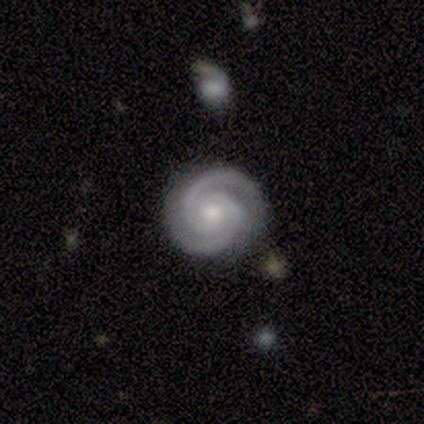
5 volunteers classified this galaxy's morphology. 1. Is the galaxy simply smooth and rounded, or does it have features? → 80% featured or disk, 20% star or artifact, 0% smooth.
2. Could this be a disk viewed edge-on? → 100% no, 0% yes.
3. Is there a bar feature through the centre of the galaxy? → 100% no, 0% strong, 0% weak.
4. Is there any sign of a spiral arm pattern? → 100% yes, 0% no.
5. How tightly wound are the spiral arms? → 100% tight, 0% medium, 0% loose.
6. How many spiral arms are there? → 100% 2, 0% 1, 0% 3, 0% 4, 0% more than 4, 0% can't tell.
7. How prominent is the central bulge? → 100% moderate, 0% dominant, 0% large, 0% small, 0% none.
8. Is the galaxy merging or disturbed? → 100% none, 0% minor disturbance, 0% major disturbance, 0% merger.